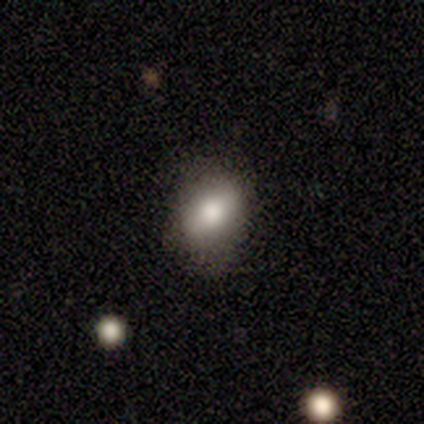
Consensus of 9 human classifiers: Smooth or featured? smooth (78%)
How rounded? in between (100%)
Merging? none (78%)